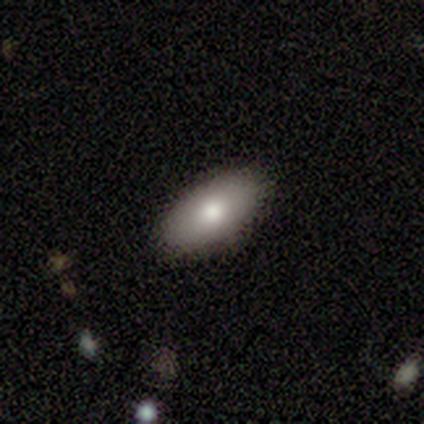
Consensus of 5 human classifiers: Q: Smooth or featured?
A: smooth (60%); runner-up: featured or disk (40%)
Q: How rounded?
A: in between (67%); runner-up: cigar-shaped (33%)
Q: Merging?
A: none (80%); runner-up: minor disturbance (20%)